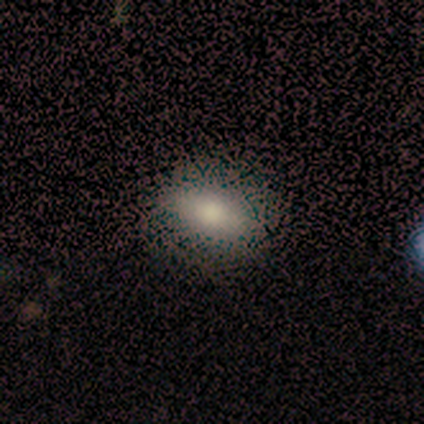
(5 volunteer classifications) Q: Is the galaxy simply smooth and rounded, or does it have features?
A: smooth — 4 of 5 (80%).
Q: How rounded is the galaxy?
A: in between — 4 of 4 (100%).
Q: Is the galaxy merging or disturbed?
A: none — 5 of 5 (100%).